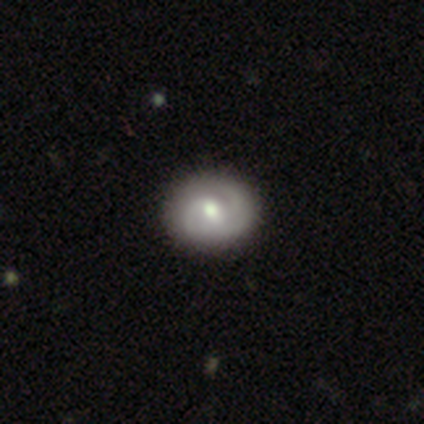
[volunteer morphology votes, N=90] Q: Smooth or featured?
A: featured or disk (66%); runner-up: smooth (27%)
Q: Edge-on disk?
A: no (95%); runner-up: yes (5%)
Q: Bar?
A: no (54%); runner-up: weak (43%)
Q: Spiral arms?
A: yes (93%); runner-up: no (7%)
Q: Spiral winding?
A: tight (54%); runner-up: medium (38%)
Q: Spiral arm count?
A: 2 (62%); runner-up: 3 (17%)
Q: Bulge size?
A: moderate (79%); runner-up: small (11%)
Q: Merging?
A: none (89%); runner-up: minor disturbance (8%)